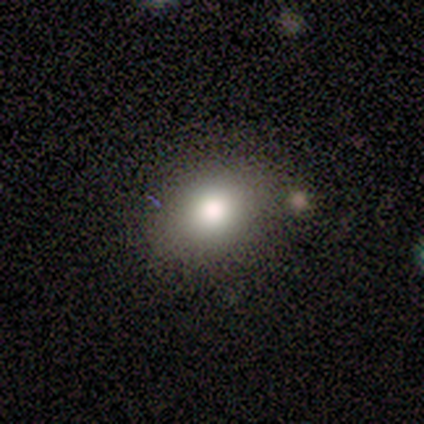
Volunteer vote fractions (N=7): Overall: smooth (71%). How rounded: in between (80%). Merging: none (60%; minor disturbance 40%).